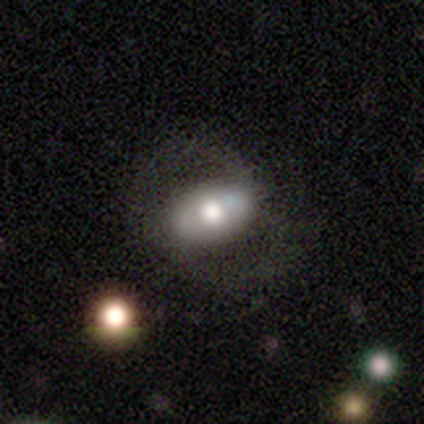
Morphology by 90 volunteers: Q: Smooth or featured?
A: smooth (49%); runner-up: featured or disk (44%)
Q: How rounded?
A: in between (95%); runner-up: round (5%)
Q: Merging?
A: none (60%); runner-up: major disturbance (26%)